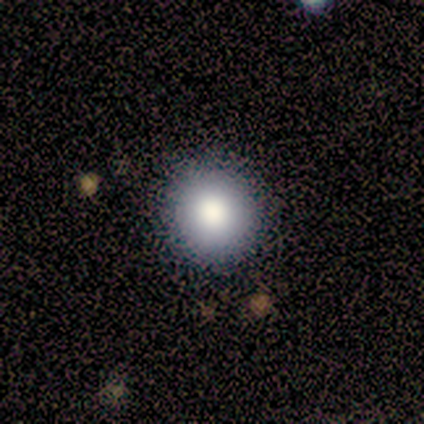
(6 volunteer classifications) This is likely a smooth galaxy (67%). How rounded: clearly round (100%). Merging: clearly none (80%).